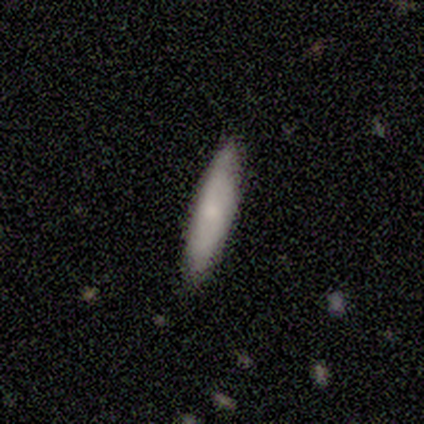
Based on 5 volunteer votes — Volunteers were most divided on "how rounded": cigar-shaped: 80%, in between: 20%, round: 0%. More confident: smooth or featured — smooth (100%); merging — none (80%).